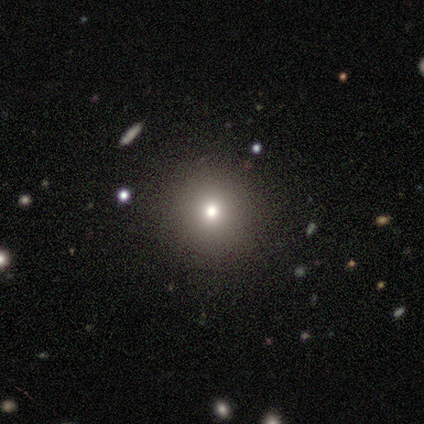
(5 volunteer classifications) Smooth or featured: smooth — 80% (star or artifact — 20%)
How rounded: round — 100%
Merging: none — 100%